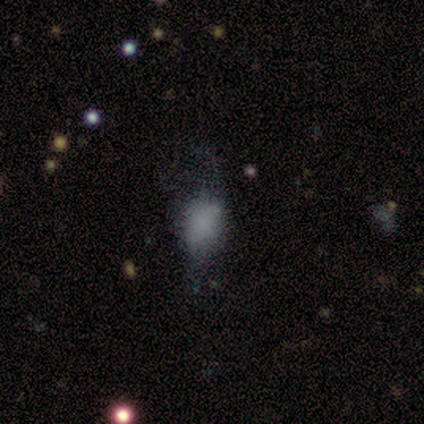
Smooth or featured? featured or disk (67%)
Edge-on disk? no (100%)
Bar? no (100%)
Spiral arms? no (100%)
Bulge size? none (100%)
Merging? major disturbance (100%)